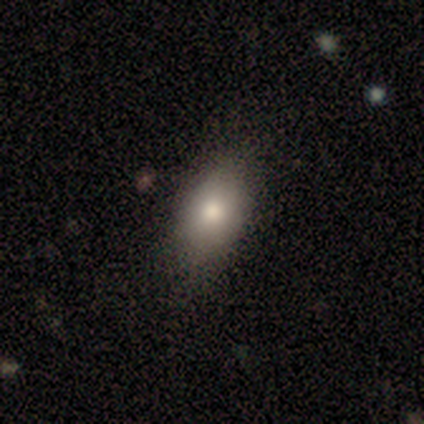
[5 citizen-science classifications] smooth_or_featured: smooth (p=1.00)
how_rounded: in between (p=0.80) [alt: round p=0.20]
merging: none (p=1.00)